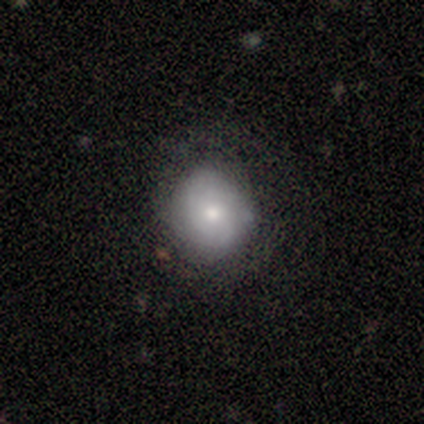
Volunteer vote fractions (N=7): Morphology: type=smooth (71%); roundness=round (100%); merging=none (100%).